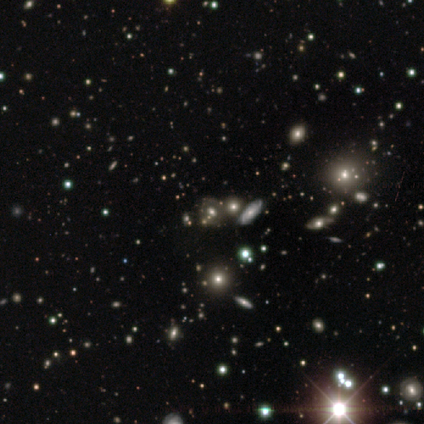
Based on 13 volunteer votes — Smooth or featured?
  - star or artifact: 54% *
  - smooth: 31%
  - featured or disk: 15%